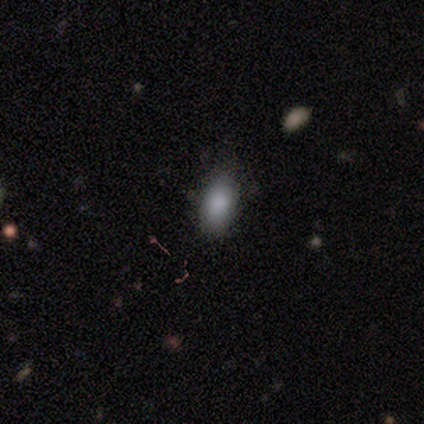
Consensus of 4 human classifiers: Volunteers were most divided on "merging": none: 50%, minor disturbance: 25%, major disturbance: 25%, merger: 0%. More confident: smooth or featured — smooth (100%); how rounded — in between (100%).